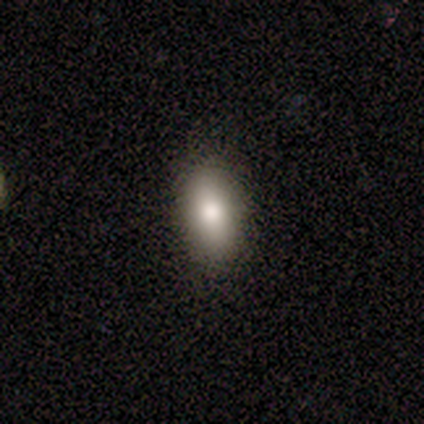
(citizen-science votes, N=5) Smooth or featured? 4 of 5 (80%) said smooth. How rounded? 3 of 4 (75%) said in between. Merging? 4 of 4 (100%) said none.